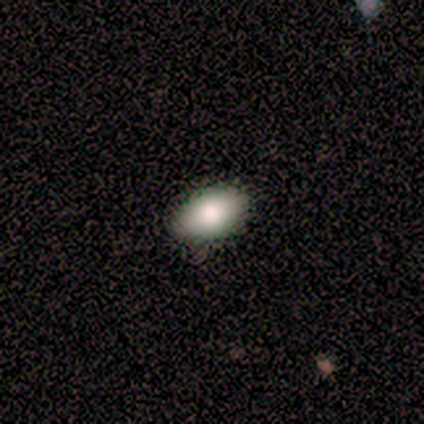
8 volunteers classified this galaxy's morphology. Volunteers were most divided on "smooth or featured": smooth: 75%, featured or disk: 12%, star or artifact: 12%. More confident: how rounded — in between (100%); merging — none (86%).